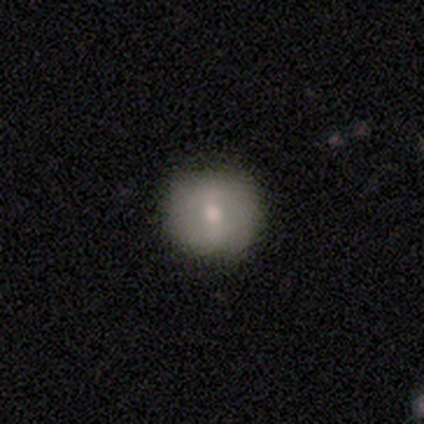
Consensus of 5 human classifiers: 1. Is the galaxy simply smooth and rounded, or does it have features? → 60% smooth, 40% featured or disk, 0% star or artifact.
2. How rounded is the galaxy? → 100% round, 0% in between, 0% cigar-shaped.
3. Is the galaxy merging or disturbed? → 100% none, 0% minor disturbance, 0% major disturbance, 0% merger.